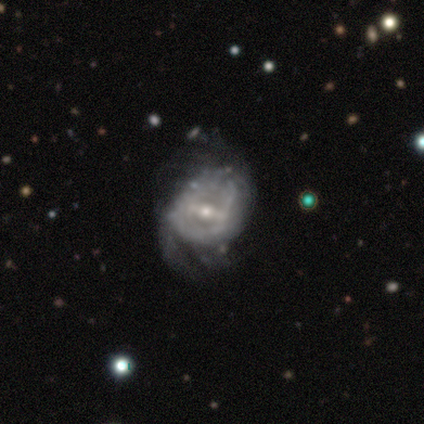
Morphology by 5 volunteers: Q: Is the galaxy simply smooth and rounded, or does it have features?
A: featured or disk — 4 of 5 (80%).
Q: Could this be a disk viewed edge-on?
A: no — 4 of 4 (100%).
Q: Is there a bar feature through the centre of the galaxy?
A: strong — 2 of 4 (50%, tied with weak).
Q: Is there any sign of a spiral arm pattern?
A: yes — 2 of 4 (50%, tied with no).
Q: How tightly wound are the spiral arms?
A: tight — 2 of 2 (100%).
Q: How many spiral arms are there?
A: can't tell — 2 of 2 (100%).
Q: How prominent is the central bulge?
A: moderate — 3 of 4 (75%).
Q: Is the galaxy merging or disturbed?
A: none — 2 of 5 (40%, tied with major disturbance).